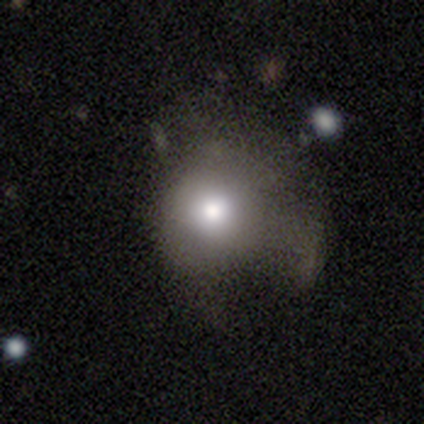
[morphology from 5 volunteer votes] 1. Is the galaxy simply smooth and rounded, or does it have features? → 40% featured or disk (tied), 40% star or artifact (tied), 20% smooth.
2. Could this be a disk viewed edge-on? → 100% no, 0% yes.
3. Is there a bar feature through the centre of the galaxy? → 100% no, 0% strong, 0% weak.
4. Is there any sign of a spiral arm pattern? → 100% no, 0% yes.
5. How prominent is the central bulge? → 50% moderate (tied), 50% small (tied), 0% dominant, 0% large, 0% none.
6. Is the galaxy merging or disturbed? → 33% none (tied), 33% minor disturbance (tied), 33% major disturbance (tied), 0% merger.